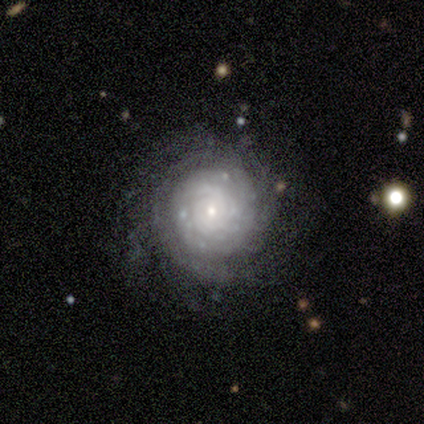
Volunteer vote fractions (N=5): This is clearly a featured or disk galaxy (80%). It is clearly not viewed edge-on (100%). Bar: clearly no (100%). Spiral arm pattern: clearly yes (100%). Spiral arm count: likely can't tell (75%). Spiral winding: clearly tight (100%). Central bulge: likely small (75%). Merging: likely none (60%).